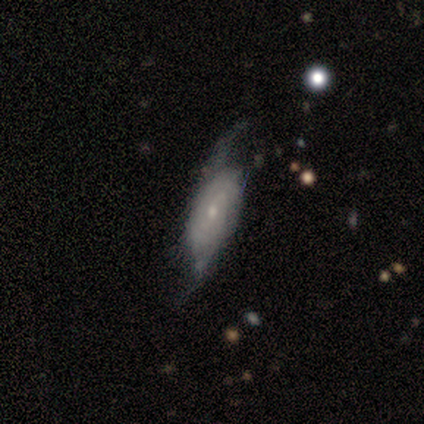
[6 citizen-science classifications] A featured or disk galaxy (83%) with a weak bar (50%), 2 (75%) tight (50%, tied with loose) spiral arms (100%) and a small central bulge (75%).

Vote fractions:
- Smooth or featured? featured or disk: 83% / smooth: 17% / star or artifact: 0%
- Edge-on disk? no: 80% / yes: 20%
- Bar? weak: 50% / strong: 25% / no: 25%
- Spiral arms? yes: 100% / no: 0%
- Spiral winding? tight: 50% (tied) / loose: 50% (tied) / medium: 0%
- Spiral arm count? 2: 75% / 3: 25% / 1: 0% / 4: 0% / more than 4: 0% / can't tell: 0%
- Bulge size? small: 75% / moderate: 25% / dominant: 0% / large: 0% / none: 0%
- Merging? none: 50% / minor disturbance: 33% / major disturbance: 17% / merger: 0%